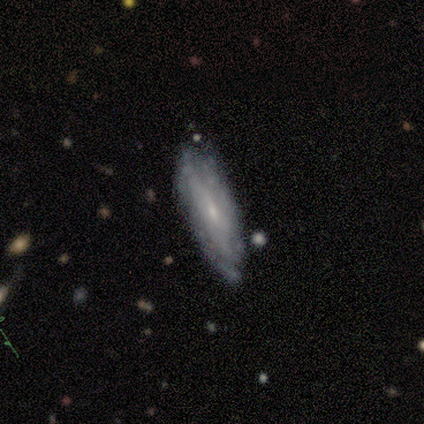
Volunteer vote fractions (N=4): Smooth or featured: featured or disk — 75% (smooth — 25%)
Edge-on disk: no — 100%
Bar: no — 67% (weak — 33%)
Spiral arms: yes — 67% (no — 33%)
Spiral winding: medium — 50% (tied with loose — 50%)
Spiral arm count: can't tell — 100%
Bulge size: moderate — 33% (tied with small — 33%; none — 33%)
Merging: none — 100%